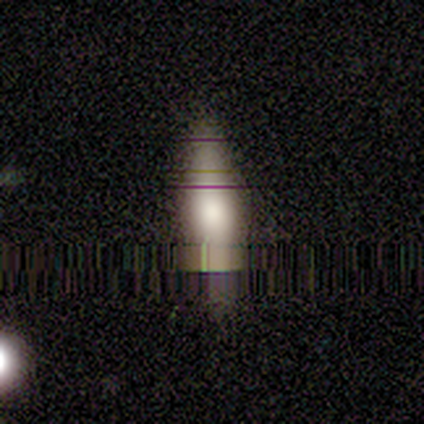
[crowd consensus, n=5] Smooth or featured? featured or disk (40%, tied with star or artifact)
Edge-on disk? yes (100%)
Edge-on bulge? rounded (100%)
Merging? none (33%, tied with minor disturbance and major disturbance)